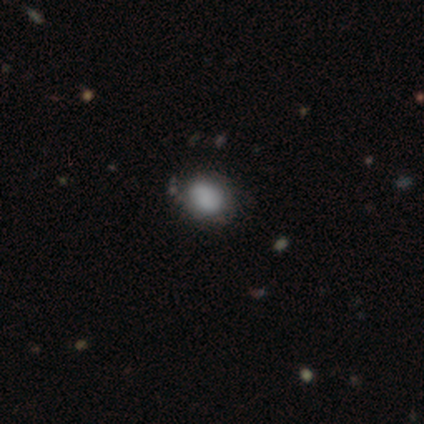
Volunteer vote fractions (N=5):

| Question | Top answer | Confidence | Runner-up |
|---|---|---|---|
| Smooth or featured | smooth | 60% | featured or disk (40%) |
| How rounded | round | 67% | in between (33%) |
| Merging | none | 60% | major disturbance (20%) |